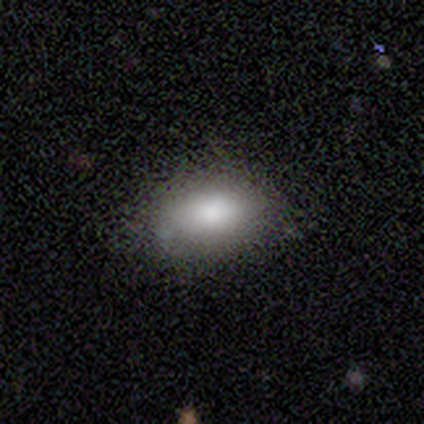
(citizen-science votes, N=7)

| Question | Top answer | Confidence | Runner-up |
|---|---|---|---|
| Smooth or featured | smooth | 86% | star or artifact (14%) |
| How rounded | in between | 83% | round (17%) |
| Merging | none | 67% | major disturbance (17%) |